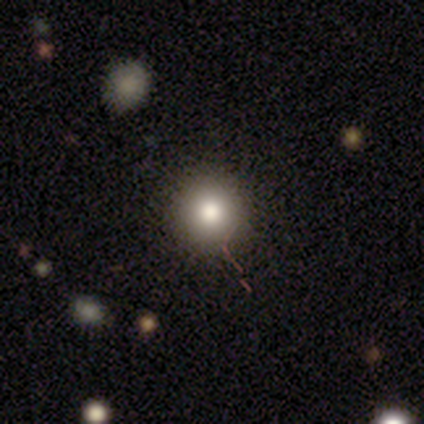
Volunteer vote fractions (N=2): Morphology: type=smooth (100%); roundness=round (100%); merging=none (100%).